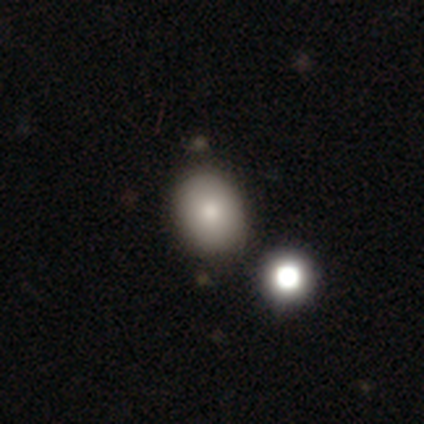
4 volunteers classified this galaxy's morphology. This is possibly a smooth galaxy (50%). How rounded: possibly round (50%, tied with in between). Merging: clearly none (100%).